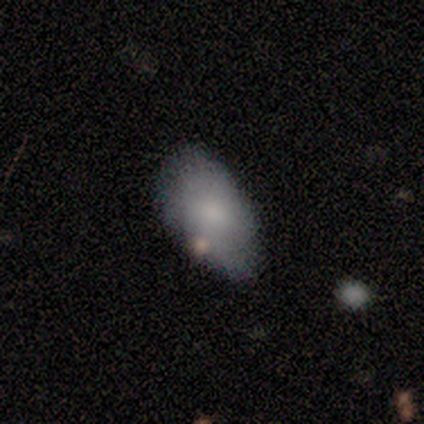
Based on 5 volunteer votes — Overall: smooth (100%). How rounded: in between (100%). Merging: minor disturbance (60%; none 40%).